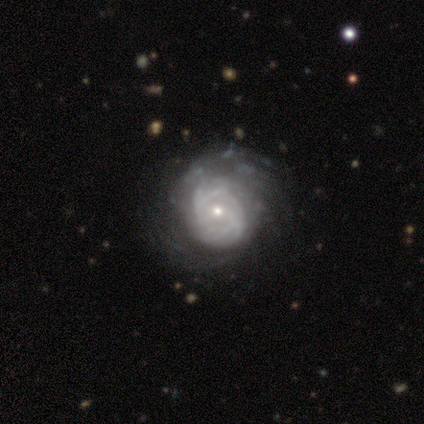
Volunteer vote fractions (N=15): Smooth or featured?
  - featured or disk: 67% *
  - smooth: 33%
  - star or artifact: 0%
Edge-on disk?
  - no: 100% *
  - yes: 0%
Bar?
  - no: 60% *
  - weak: 30%
  - strong: 10%
Spiral arms?
  - yes: 90% *
  - no: 10%
Spiral winding?
  - tight: 78% *
  - medium: 22%
  - loose: 0%
Spiral arm count?
  - can't tell: 56% *
  - 3: 22%
  - more than 4: 22%
  - 1: 0%
  - 2: 0%
  - 4: 0%
Bulge size?
  - moderate: 50% * (tied)
  - small: 50% * (tied)
  - dominant: 0%
  - large: 0%
  - none: 0%
Merging?
  - none: 47% *
  - minor disturbance: 33%
  - major disturbance: 13%
  - merger: 7%